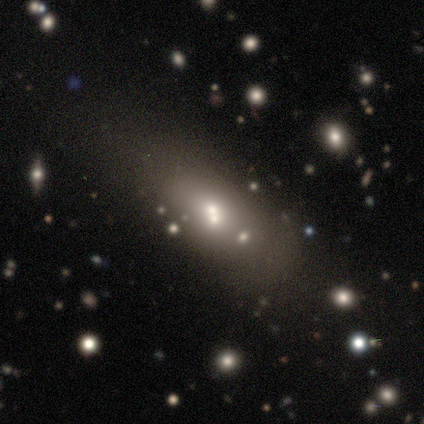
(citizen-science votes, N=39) This is likely a smooth galaxy (64%). How rounded: likely in between (64%). Merging: possibly none (56%).